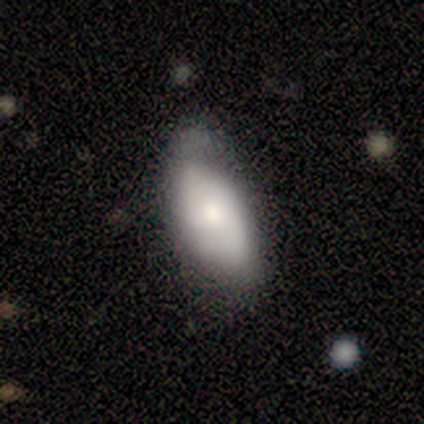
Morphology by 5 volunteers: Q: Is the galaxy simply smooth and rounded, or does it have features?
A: smooth — 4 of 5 (80%).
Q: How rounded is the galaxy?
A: in between — 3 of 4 (75%).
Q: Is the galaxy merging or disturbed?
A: none — 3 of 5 (60%).